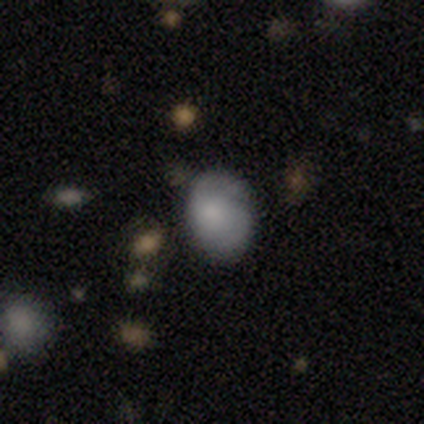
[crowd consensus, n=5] This is clearly a smooth galaxy (80%). How rounded: likely in between (75%). Merging: marginally none (40%, tied with minor disturbance).